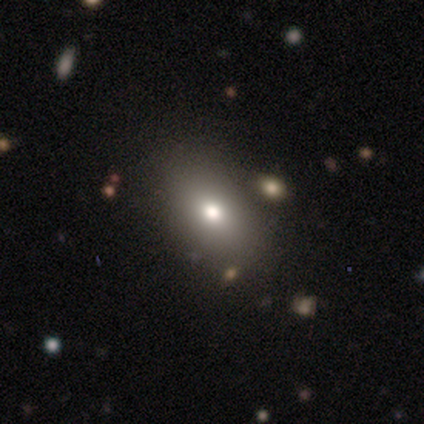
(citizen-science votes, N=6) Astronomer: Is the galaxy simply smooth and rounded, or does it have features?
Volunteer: smooth — 67%.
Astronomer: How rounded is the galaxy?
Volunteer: in between — 100%.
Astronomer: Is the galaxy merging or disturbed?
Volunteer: none — 83%.